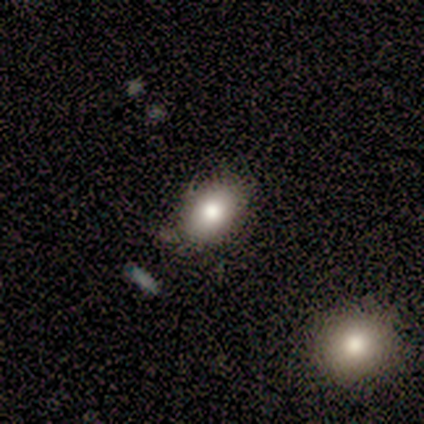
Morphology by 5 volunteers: smooth 100%, featured or disk 0%, star or artifact 0%. Down the decision tree: how rounded — in between (80%); merging — none (80%).